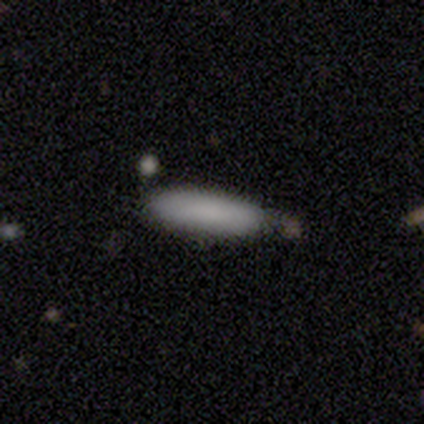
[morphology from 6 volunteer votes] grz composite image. It shows a smooth galaxy with no disk features (100%) that is cigar-shaped (83%). Merging: none (67%).